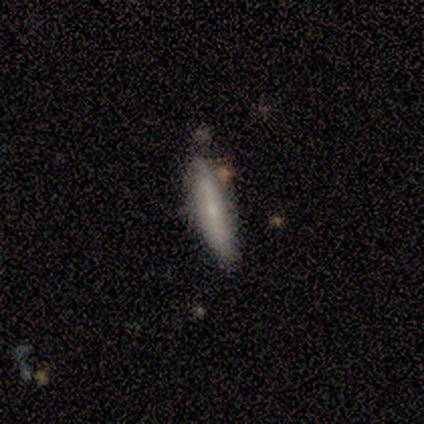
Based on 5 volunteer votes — featured or disk 60%, smooth 40%, star or artifact 0%. Down the decision tree: edge-on disk — yes (67%); edge-on bulge — rounded (100%); merging — none (80%).